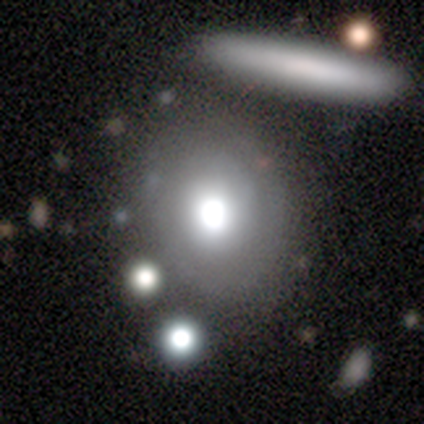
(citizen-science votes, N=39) smooth 49%, featured or disk 38%, star or artifact 13%. Down the decision tree: how rounded — round (74%); merging — none (65%).